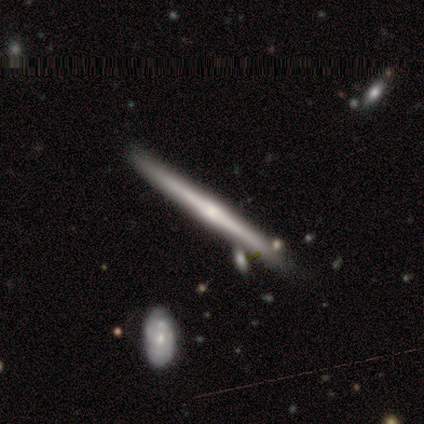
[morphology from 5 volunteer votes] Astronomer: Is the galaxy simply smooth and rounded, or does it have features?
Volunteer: featured or disk — 100%.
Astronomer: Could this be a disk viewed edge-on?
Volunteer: yes — 100%.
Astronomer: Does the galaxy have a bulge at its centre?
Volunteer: rounded — 60% (runner-up: none, 40%).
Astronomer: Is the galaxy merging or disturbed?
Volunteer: none — 80%.